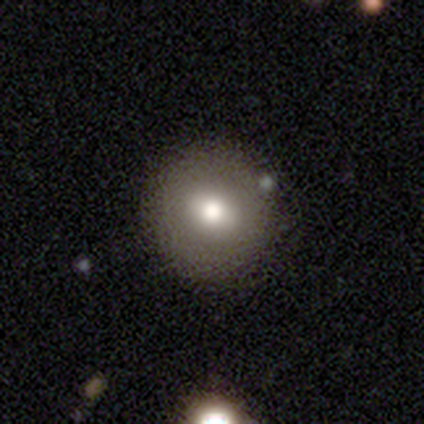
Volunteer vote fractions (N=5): smooth_or_featured: smooth (p=0.60) [alt: featured or disk p=0.20]
how_rounded: round (p=1.00)
merging: none (p=1.00)